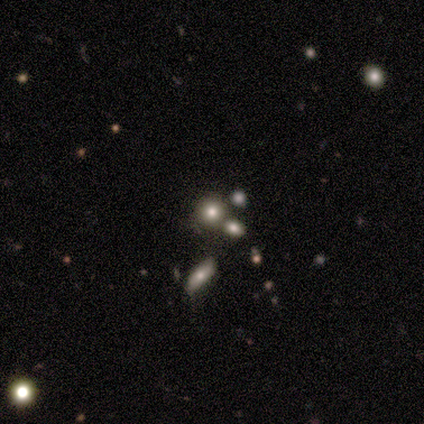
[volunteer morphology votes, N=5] Smooth or featured? smooth (60%)
How rounded? round (100%)
Merging? none (100%)